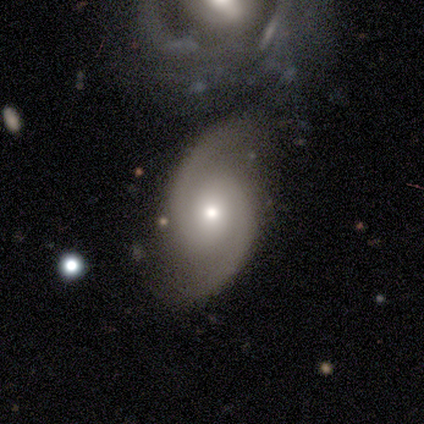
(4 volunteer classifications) This is likely a featured or disk galaxy (75%). It is clearly not viewed edge-on (100%). Bar: clearly no (100%). Spiral arm pattern: clearly yes (100%). Spiral arm count: clearly 2 (100%). Spiral winding: likely medium (67%). Central bulge: likely moderate (67%). Merging: likely none (75%).